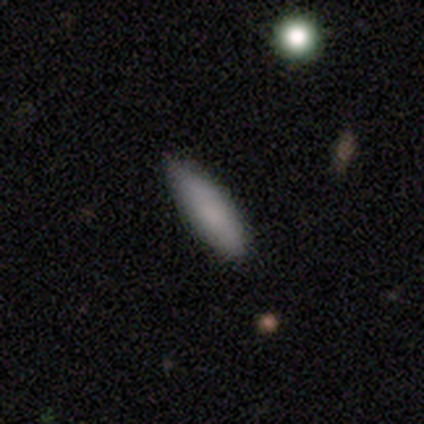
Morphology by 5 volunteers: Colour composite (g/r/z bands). It shows a smooth galaxy with no disk features (100%) that is cigar-shaped (60%). Merging: none (100%).